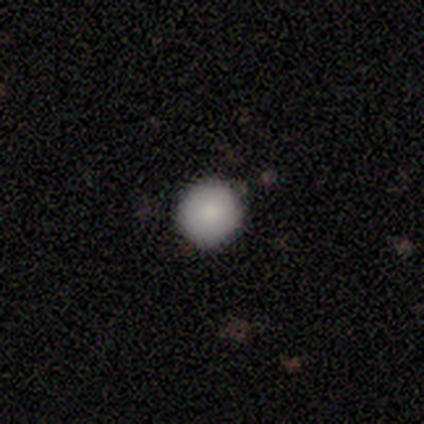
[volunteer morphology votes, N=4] Smooth or featured?
  - smooth: 100% *
  - featured or disk: 0%
  - star or artifact: 0%
How rounded?
  - round: 100% *
  - in between: 0%
  - cigar-shaped: 0%
Merging?
  - none: 100% *
  - minor disturbance: 0%
  - major disturbance: 0%
  - merger: 0%